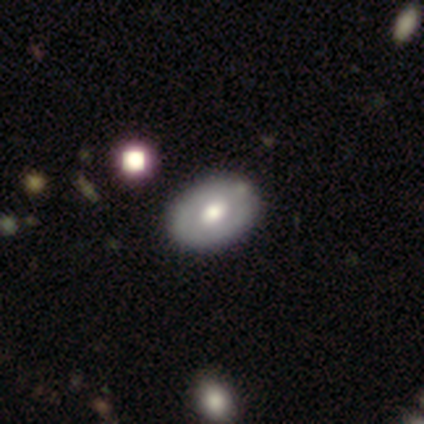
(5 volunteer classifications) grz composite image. It shows a featured or disk galaxy (80%) with no bar (100%), no spiral arms (75%) and a moderate central bulge (100%). Merging: none (100%).